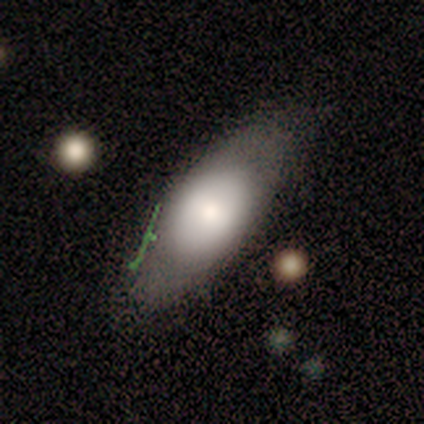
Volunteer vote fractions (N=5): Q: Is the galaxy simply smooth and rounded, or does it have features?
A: smooth — 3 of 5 (60%).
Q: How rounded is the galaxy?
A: in between — 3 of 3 (100%).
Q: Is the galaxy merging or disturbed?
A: none — 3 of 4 (75%).